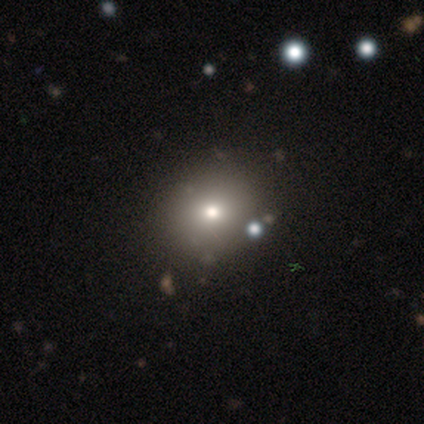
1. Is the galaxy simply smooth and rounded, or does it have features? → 40% smooth (tied), 40% featured or disk (tied), 20% star or artifact.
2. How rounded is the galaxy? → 50% round (tied), 50% in between (tied), 0% cigar-shaped.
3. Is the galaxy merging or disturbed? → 100% none, 0% minor disturbance, 0% major disturbance, 0% merger.